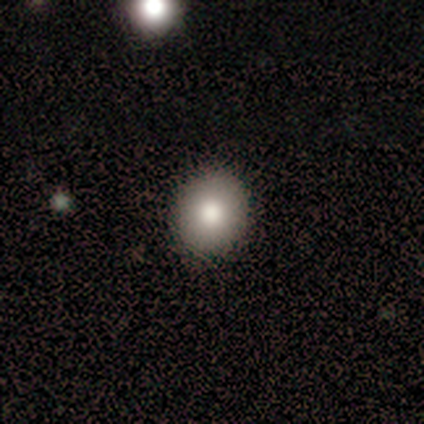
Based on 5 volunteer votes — Smooth or featured?
  - smooth: 80% *
  - star or artifact: 20%
  - featured or disk: 0%
How rounded?
  - round: 100% *
  - in between: 0%
  - cigar-shaped: 0%
Merging?
  - none: 100% *
  - minor disturbance: 0%
  - major disturbance: 0%
  - merger: 0%